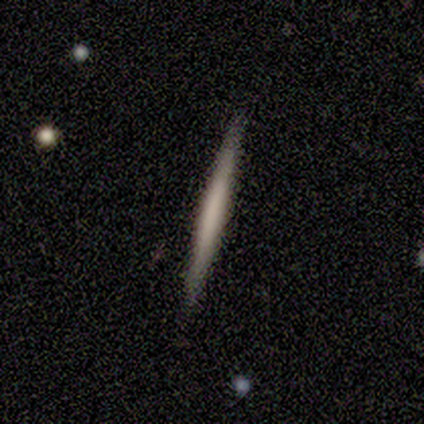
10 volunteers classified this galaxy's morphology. A smooth galaxy with no disk features (60%) that is cigar-shaped (100%). Merging: none (100%).